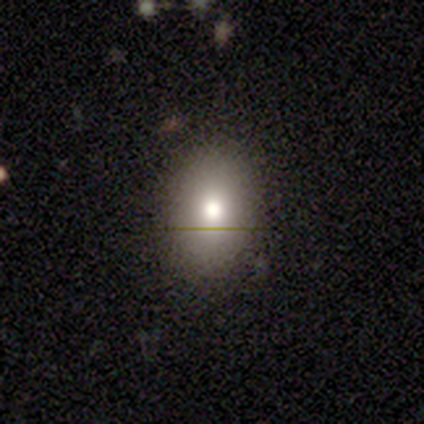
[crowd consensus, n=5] Overall: smooth (40%, tied with featured or disk). How rounded: round (50%, tied with in between). Merging: none (75%).